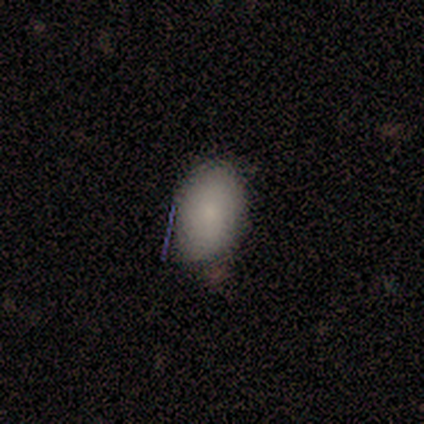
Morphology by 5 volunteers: This is clearly a smooth galaxy (80%). How rounded: clearly in between (100%). Merging: likely none (60%).